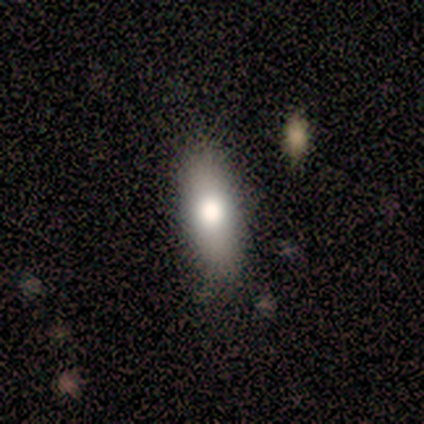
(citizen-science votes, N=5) Overall: smooth (80%). How rounded: in between (75%). Merging: none (80%).